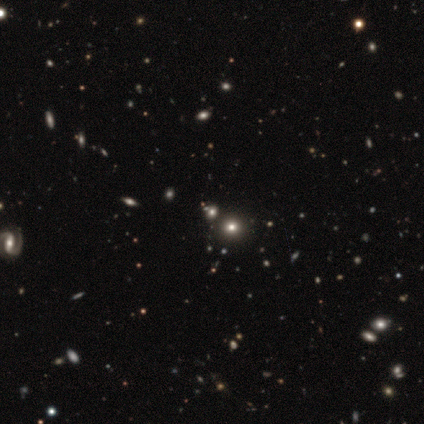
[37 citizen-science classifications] Smooth or featured? smooth (54%)
How rounded? round (80%)
Merging? none (81%)